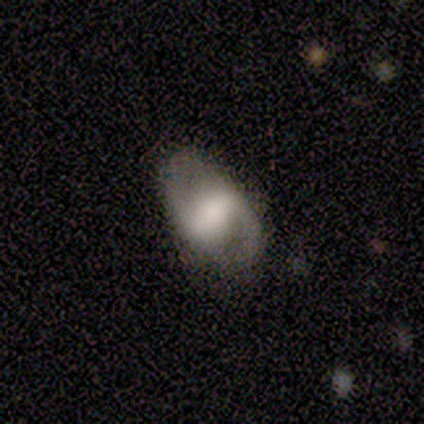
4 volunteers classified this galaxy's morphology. Q: Smooth or featured?
A: featured or disk (50%); tied with: star or artifact (50%)
Q: Edge-on disk?
A: no (100%)
Q: Bar?
A: strong (50%); tied with: weak (50%)
Q: Spiral arms?
A: yes (100%)
Q: Spiral winding?
A: medium (100%)
Q: Spiral arm count?
A: 2 (100%)
Q: Bulge size?
A: large (50%); tied with: moderate (50%)
Q: Merging?
A: none (100%)